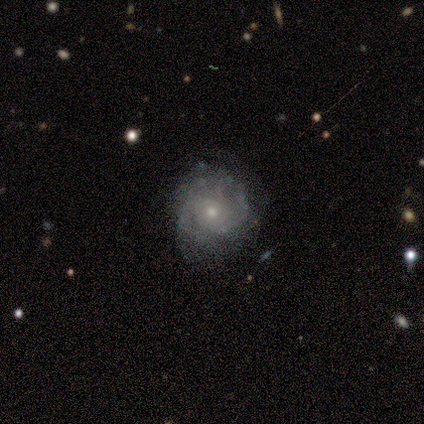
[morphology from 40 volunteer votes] type=featured or disk (72%); edge-on=no (100%); bar=no (83%); spiral arms=yes (90%); winding=tight (65%); arm count=2 (62%); bulge=small (76%); merging=none (65%).